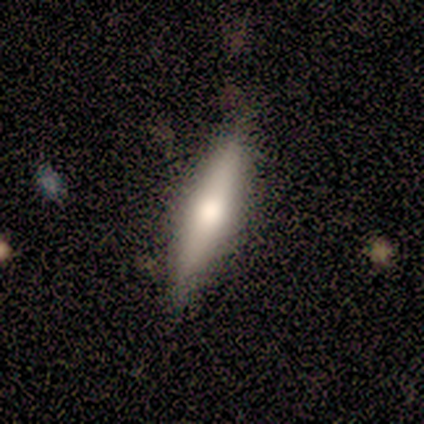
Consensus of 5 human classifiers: smooth-or-featured: smooth: 60% | featured or disk: 40% | star or artifact: 0%
  how-rounded: cigar-shaped: 100% | round: 0% | in between: 0%
  merging: none: 60% | minor disturbance: 20% | merger: 20% | major disturbance: 0%